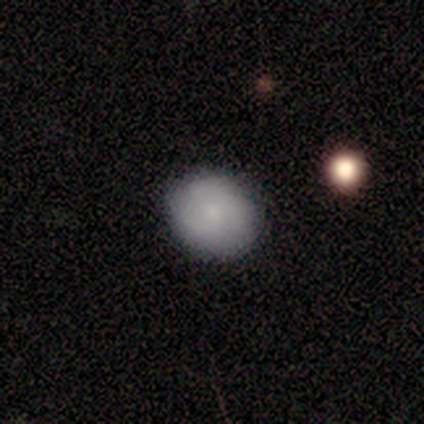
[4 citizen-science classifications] This is possibly a smooth galaxy (50%). How rounded: possibly round (50%, tied with in between). Merging: clearly none (100%).